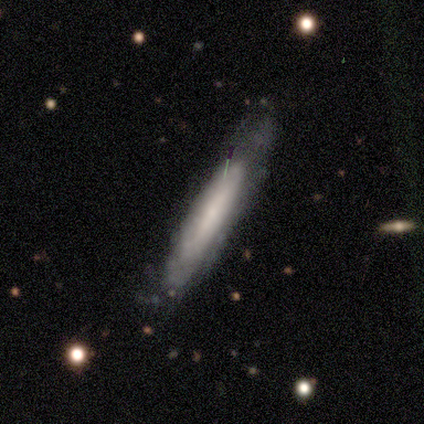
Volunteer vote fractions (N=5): Smooth or featured? 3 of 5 (60%) said smooth. How rounded? 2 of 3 (67%) said cigar-shaped. Merging? 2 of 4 (50%) said none.